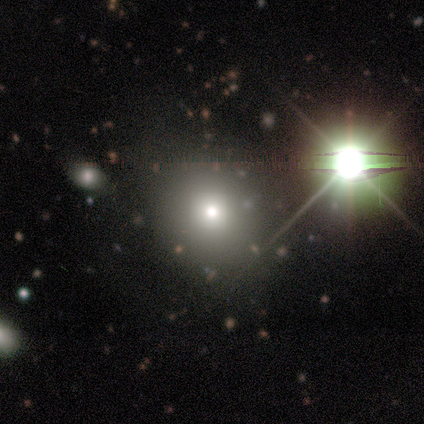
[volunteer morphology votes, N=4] smooth-or-featured: smooth: 50% (tied) | star or artifact: 50% (tied) | featured or disk: 0%
  how-rounded: round: 50% (tied) | in between: 50% (tied) | cigar-shaped: 0%
  merging: none: 100% | minor disturbance: 0% | major disturbance: 0% | merger: 0%